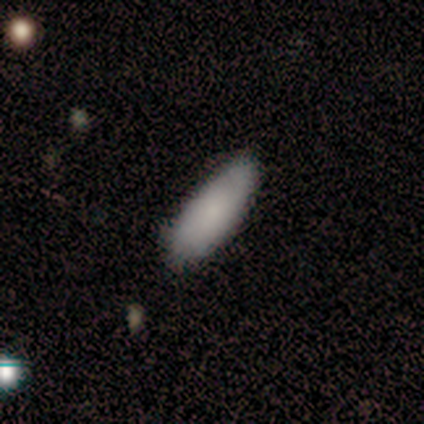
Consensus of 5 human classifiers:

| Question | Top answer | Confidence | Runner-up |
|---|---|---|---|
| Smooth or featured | smooth | 100% | — |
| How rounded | in between | 60% | cigar-shaped (40%) |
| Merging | none | 100% | — |